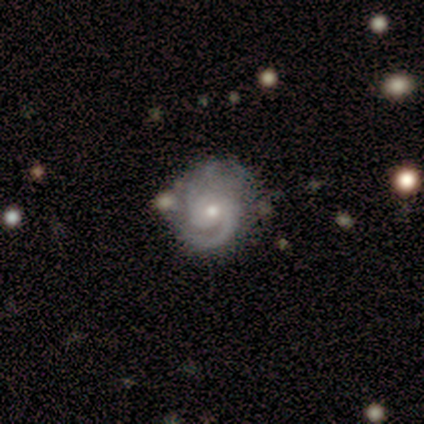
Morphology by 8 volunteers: This appears to be a featured or disk galaxy (88%) with no bar (86%), 2 (57%) tight (71%) spiral arms (100%) and a small central bulge (57%). Merging: none (62%).